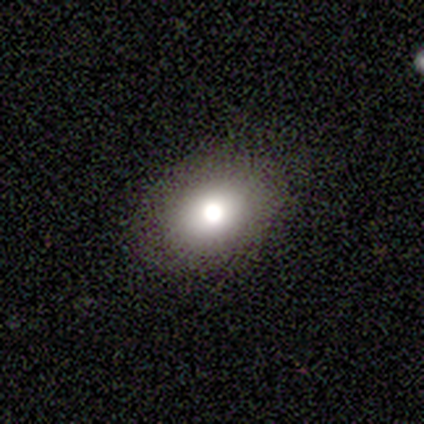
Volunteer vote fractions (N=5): A smooth galaxy with no disk features (60%) that is in between round and cigar-shaped (100%). Merging: none (75%).